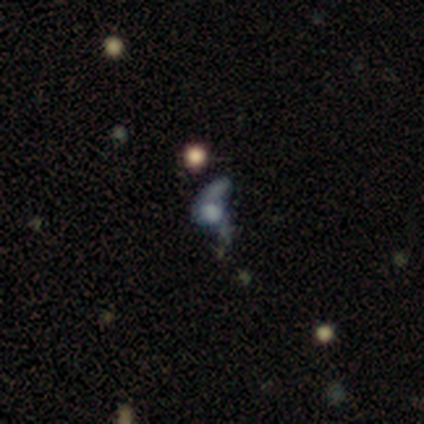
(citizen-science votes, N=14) Smooth or featured? featured or disk (64%)
Edge-on disk? no (100%)
Bar? no (100%)
Spiral arms? no (56%)
Bulge size? large (33%, tied with none)
Merging? major disturbance (36%)